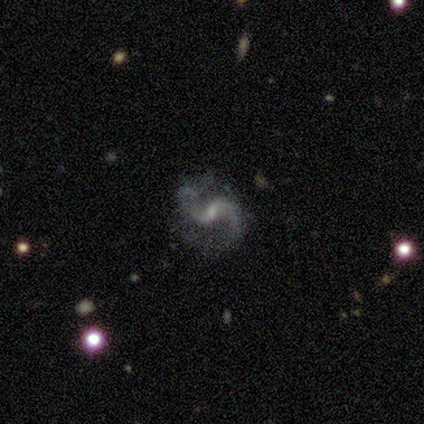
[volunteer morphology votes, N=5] smooth-or-featured: featured or disk: 100% | smooth: 0% | star or artifact: 0%
  disk-edge-on: no: 100% | yes: 0%
    bar: no: 60% | weak: 40% | strong: 0%
    has-spiral-arms: yes: 100% | no: 0%
      spiral-winding: loose: 80% | medium: 20% | tight: 0%
      spiral-arm-count: 2: 100% | 1: 0% | 3: 0% | 4: 0% | more than 4: 0% | can't tell: 0%
    bulge-size: small: 60% | moderate: 20% | none: 20% | dominant: 0% | large: 0%
  merging: none: 60% | minor disturbance: 20% | major disturbance: 20% | merger: 0%